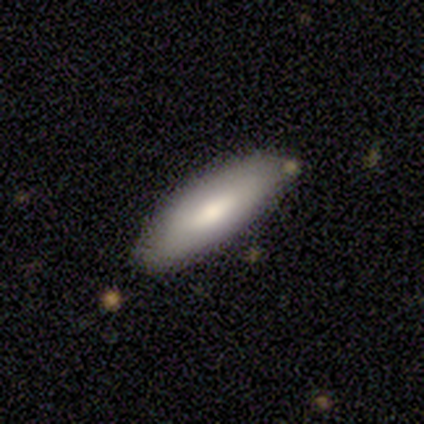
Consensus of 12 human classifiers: Smooth or featured?
  - featured or disk: 67% *
  - smooth: 33%
  - star or artifact: 0%
Edge-on disk?
  - no: 62% *
  - yes: 38%
Bar?
  - strong: 40% * (tied)
  - no: 40% * (tied)
  - weak: 20%
Spiral arms?
  - no: 80% *
  - yes: 20%
Bulge size?
  - moderate: 80% *
  - small: 20%
  - dominant: 0%
  - large: 0%
  - none: 0%
Merging?
  - none: 75% *
  - minor disturbance: 25%
  - major disturbance: 0%
  - merger: 0%